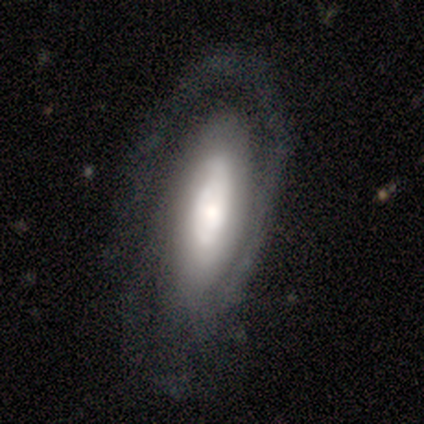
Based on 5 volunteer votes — A featured or disk galaxy (60%) with a weak bar (50%, tied with no), 2 (50%, tied with can't tell) tight (50%, tied with medium) spiral arms (100%) and a large central bulge (50%, tied with moderate). Merging: none (60%).